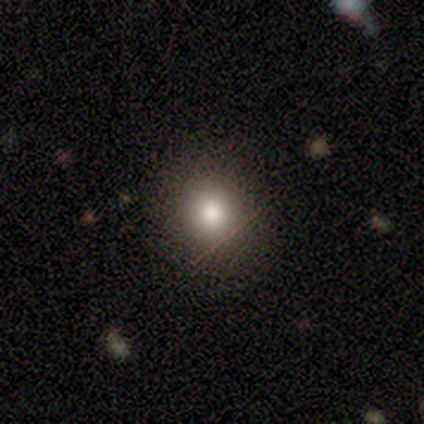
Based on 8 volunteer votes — This is likely a smooth galaxy (62%). How rounded: clearly round (100%). Merging: likely none (75%).